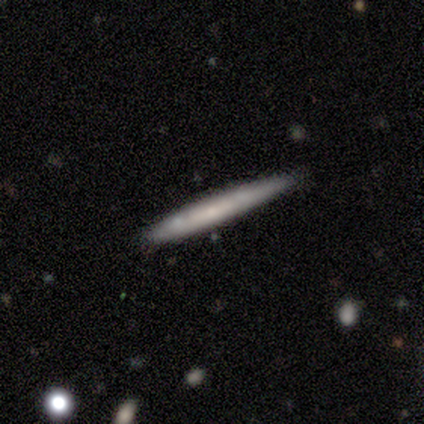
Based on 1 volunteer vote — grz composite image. It shows a featured or disk galaxy (100%) viewed edge-on (100%) with no central bulge (100%). Merging: none (100%).